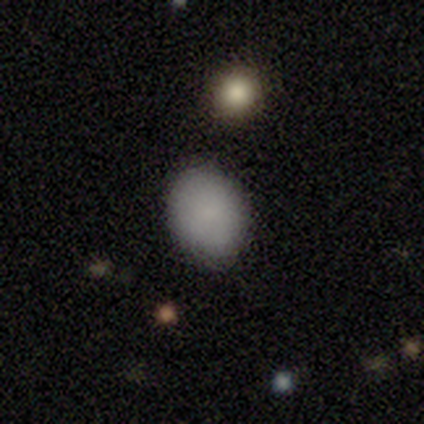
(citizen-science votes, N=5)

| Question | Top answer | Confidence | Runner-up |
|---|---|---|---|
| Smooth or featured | smooth | 100% | — |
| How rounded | in between | 80% | round (20%) |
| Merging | none | 60% | minor disturbance (40%) |